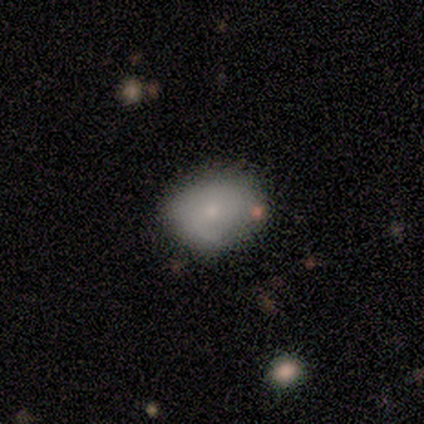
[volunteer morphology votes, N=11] Smooth or featured: star or artifact — 45% (smooth — 27%)